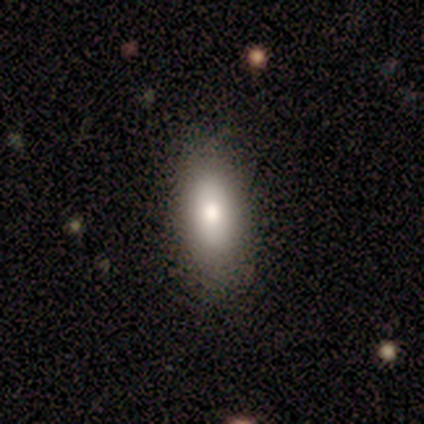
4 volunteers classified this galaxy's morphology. type=smooth (75%); roundness=in between (100%); merging=none (75%).